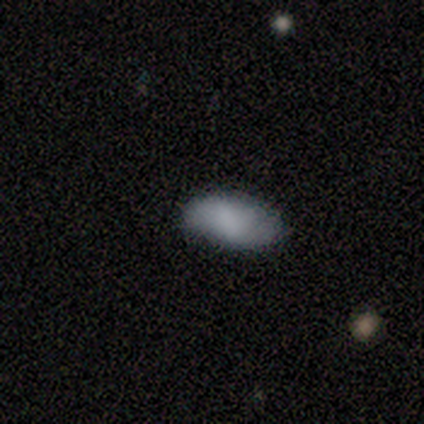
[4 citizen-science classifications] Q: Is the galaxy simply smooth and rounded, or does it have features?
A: smooth — 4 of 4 (100%).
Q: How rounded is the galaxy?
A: in between — 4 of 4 (100%).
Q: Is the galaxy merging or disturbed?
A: none — 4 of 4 (100%).